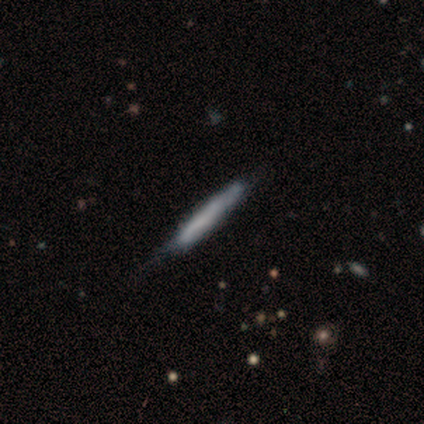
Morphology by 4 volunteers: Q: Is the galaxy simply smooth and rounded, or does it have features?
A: smooth — 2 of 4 (50%, tied with featured or disk).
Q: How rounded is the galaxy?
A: cigar-shaped — 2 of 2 (100%).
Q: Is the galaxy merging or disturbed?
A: none — 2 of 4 (50%).